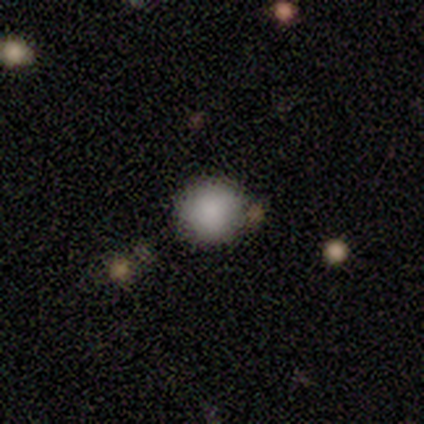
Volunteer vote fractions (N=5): Smooth or featured?
  - smooth: 80% *
  - featured or disk: 20%
  - star or artifact: 0%
How rounded?
  - round: 100% *
  - in between: 0%
  - cigar-shaped: 0%
Merging?
  - none: 80% *
  - minor disturbance: 20%
  - major disturbance: 0%
  - merger: 0%